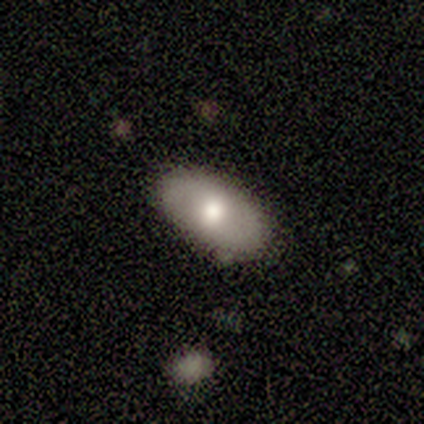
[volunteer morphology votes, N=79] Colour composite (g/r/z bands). It shows a smooth galaxy with no disk features (75%) that is in between round and cigar-shaped (98%). Merging: none (48%).